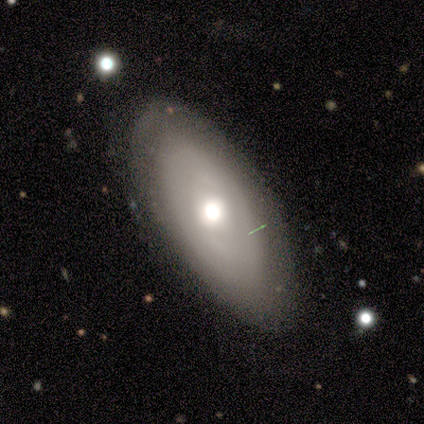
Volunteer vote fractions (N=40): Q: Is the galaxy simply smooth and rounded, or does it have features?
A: featured or disk — 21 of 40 (52%).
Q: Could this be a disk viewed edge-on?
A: no — 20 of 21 (95%).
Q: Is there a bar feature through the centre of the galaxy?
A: no — 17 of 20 (85%).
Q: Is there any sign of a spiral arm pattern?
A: no — 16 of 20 (80%).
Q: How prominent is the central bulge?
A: moderate — 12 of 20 (60%).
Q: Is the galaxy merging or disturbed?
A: none — 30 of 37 (81%).